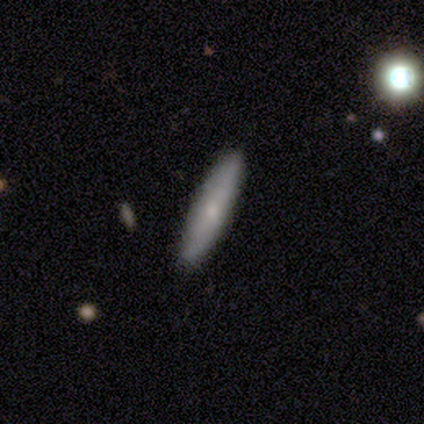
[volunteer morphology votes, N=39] Volunteers were most divided on "smooth or featured": smooth: 69%, featured or disk: 28%, star or artifact: 3%. More confident: merging — none (89%); how rounded — cigar-shaped (89%).